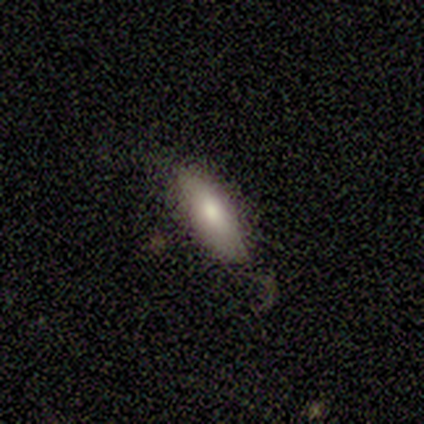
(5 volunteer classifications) This is likely a smooth galaxy (60%). How rounded: likely in between (67%). Merging: possibly none (50%, tied with minor disturbance).